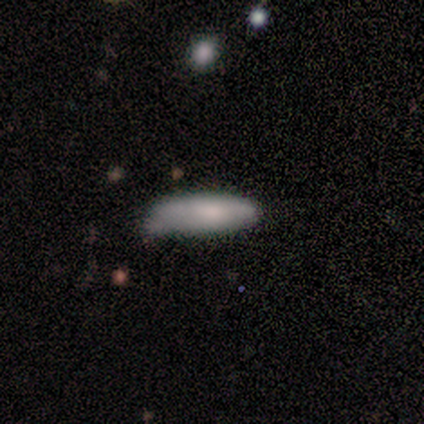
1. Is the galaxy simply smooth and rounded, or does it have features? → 100% smooth, 0% featured or disk, 0% star or artifact.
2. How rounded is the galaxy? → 60% in between, 40% cigar-shaped, 0% round.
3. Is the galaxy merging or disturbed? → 60% minor disturbance, 40% none, 0% major disturbance, 0% merger.